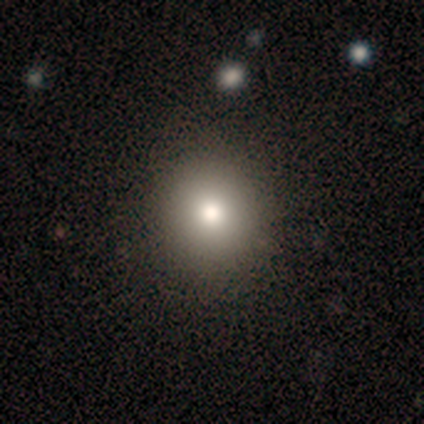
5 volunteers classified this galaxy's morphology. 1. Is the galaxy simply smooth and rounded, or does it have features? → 40% smooth (tied), 40% star or artifact (tied), 20% featured or disk.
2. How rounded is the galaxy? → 50% round (tied), 50% in between (tied), 0% cigar-shaped.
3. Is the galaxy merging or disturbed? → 100% none, 0% minor disturbance, 0% major disturbance, 0% merger.